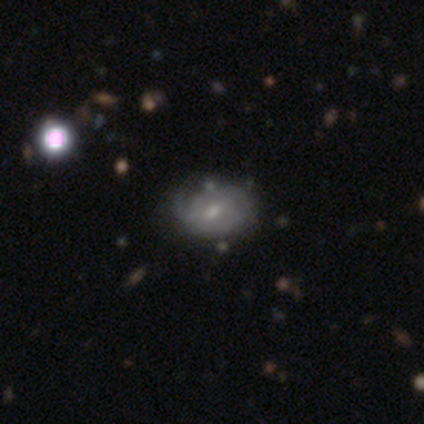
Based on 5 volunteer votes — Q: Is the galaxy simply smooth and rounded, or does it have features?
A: featured or disk — 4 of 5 (80%).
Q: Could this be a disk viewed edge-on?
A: no — 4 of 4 (100%).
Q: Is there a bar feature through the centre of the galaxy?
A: weak — 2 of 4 (50%, tied with no).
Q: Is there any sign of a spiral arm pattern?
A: yes — 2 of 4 (50%, tied with no).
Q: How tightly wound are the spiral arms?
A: tight — 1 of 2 (50%, tied with medium).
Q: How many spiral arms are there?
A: can't tell — 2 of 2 (100%).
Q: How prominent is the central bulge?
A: small — 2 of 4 (50%).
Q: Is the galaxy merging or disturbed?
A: none — 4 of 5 (80%).